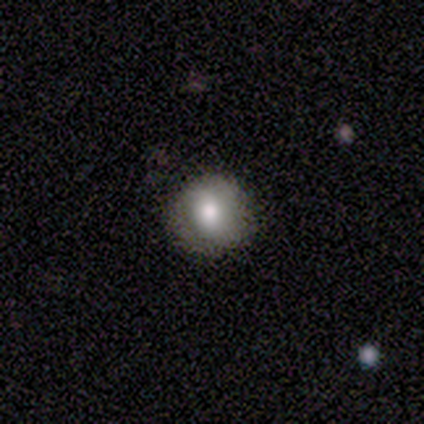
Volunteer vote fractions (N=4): smooth-or-featured: smooth: 100% | featured or disk: 0% | star or artifact: 0%
  how-rounded: round: 75% | in between: 25% | cigar-shaped: 0%
  merging: none: 75% | minor disturbance: 25% | major disturbance: 0% | merger: 0%